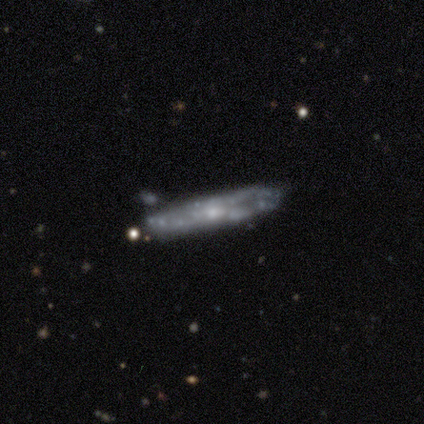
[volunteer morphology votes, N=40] This is likely a featured or disk galaxy (62%). It is likely not viewed edge-on (60%). Bar: clearly no (87%). Spiral arm pattern: possibly no (53%). Central bulge: clearly small (80%). Merging: likely none (75%).